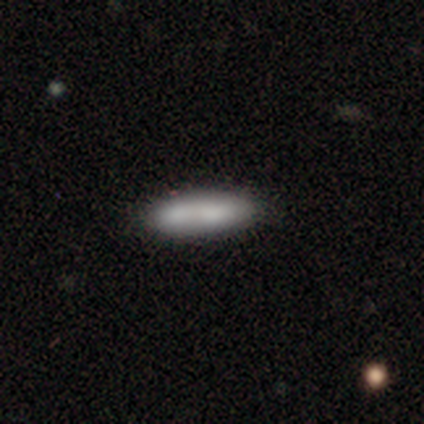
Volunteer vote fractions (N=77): Morphology: type=smooth (81%); roundness=in between (55%); merging=none (33%, tied with merger).